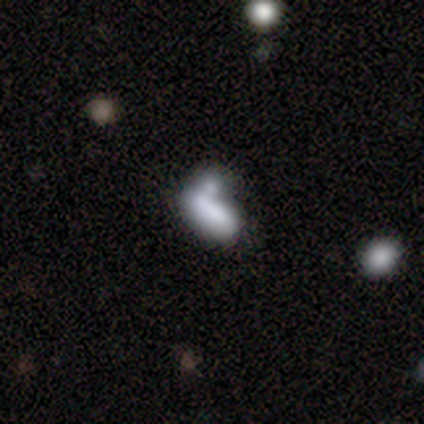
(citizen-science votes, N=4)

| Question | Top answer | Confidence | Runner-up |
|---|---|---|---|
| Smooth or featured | smooth | 100% | — |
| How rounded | in between | 75% | cigar-shaped (25%) |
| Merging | none | 25% | tied: minor disturbance (25%), major disturbance (25%), merger (25%) |